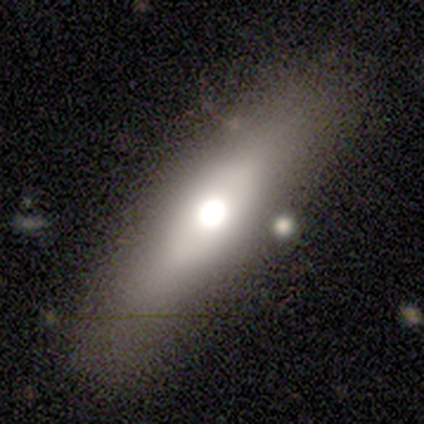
This is clearly a smooth galaxy (80%). How rounded: possibly cigar-shaped (50%). Merging: likely none (60%).